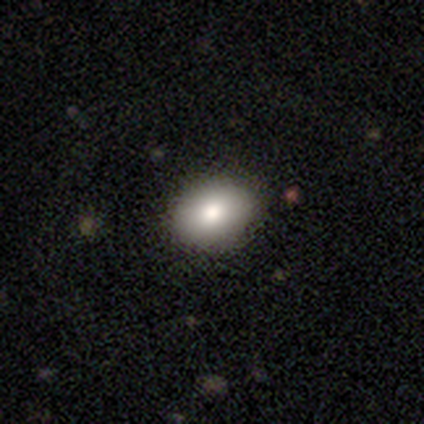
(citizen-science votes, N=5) This is clearly a smooth galaxy (80%). How rounded: clearly in between (100%). Merging: clearly none (100%).